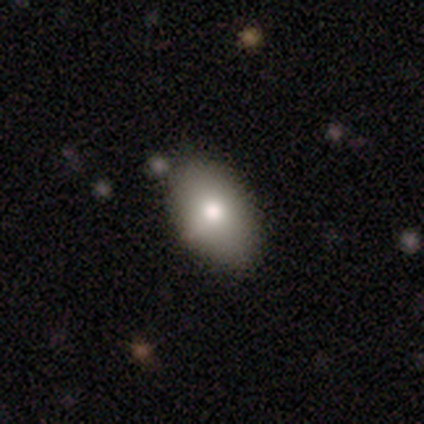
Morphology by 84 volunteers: This appears to be a smooth galaxy with no disk features (79%) that is in between round and cigar-shaped (94%). Merging: none (80%).